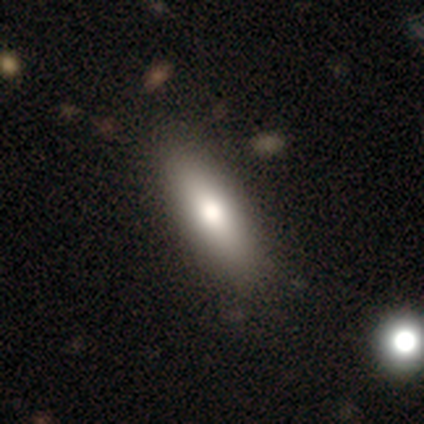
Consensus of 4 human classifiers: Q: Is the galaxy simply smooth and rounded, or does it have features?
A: smooth — 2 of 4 (50%, tied with featured or disk).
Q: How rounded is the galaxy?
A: in between — 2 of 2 (100%).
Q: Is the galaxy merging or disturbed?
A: none — 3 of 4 (75%).